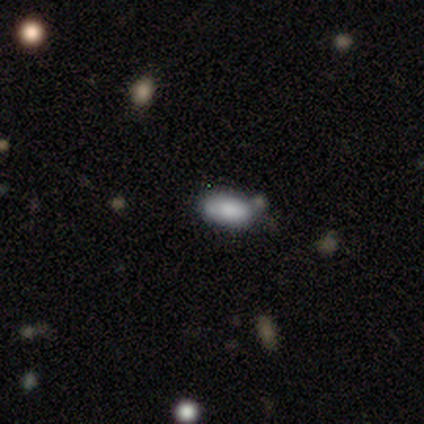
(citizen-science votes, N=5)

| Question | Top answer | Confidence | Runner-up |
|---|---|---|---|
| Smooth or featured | smooth | 80% | featured or disk (20%) |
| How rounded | in between | 100% | — |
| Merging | none | 60% | major disturbance (20%) |